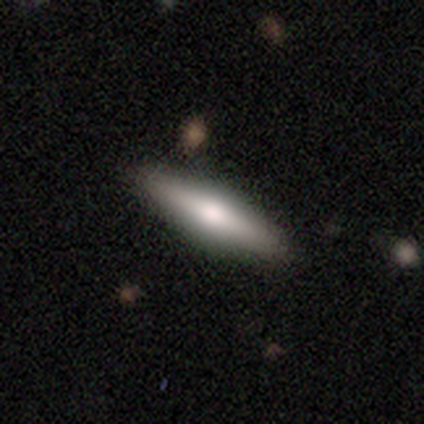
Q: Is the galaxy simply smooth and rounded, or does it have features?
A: smooth — 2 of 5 (40%, tied with featured or disk).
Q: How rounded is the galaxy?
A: cigar-shaped — 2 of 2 (100%).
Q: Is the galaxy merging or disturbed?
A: none — 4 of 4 (100%).